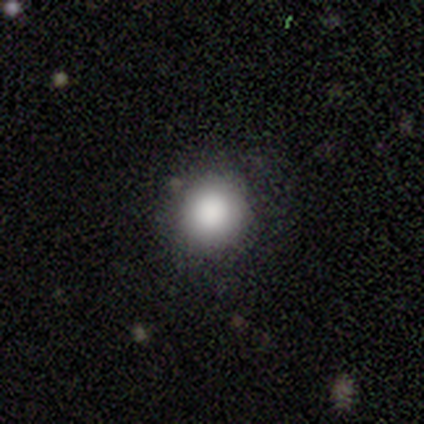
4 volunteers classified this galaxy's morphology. A smooth galaxy with no disk features (100%) that is round (100%).

Vote fractions:
- Smooth or featured? smooth: 100% / featured or disk: 0% / star or artifact: 0%
- How rounded? round: 100% / in between: 0% / cigar-shaped: 0%
- Merging? none: 100% / minor disturbance: 0% / major disturbance: 0% / merger: 0%